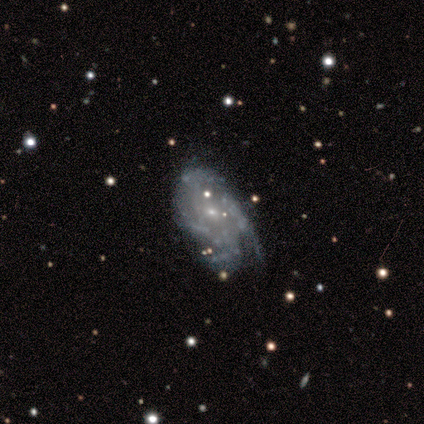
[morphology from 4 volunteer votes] A featured or disk galaxy (75%) with a strong bar (33%, tied with weak and no), 4 (67%) tight (67%) spiral arms (100%) and a small central bulge (100%).

Vote fractions:
- Smooth or featured? featured or disk: 75% / star or artifact: 25% / smooth: 0%
- Edge-on disk? no: 100% / yes: 0%
- Bar? strong: 33% (tied) / weak: 33% (tied) / no: 33% (tied)
- Spiral arms? yes: 100% / no: 0%
- Spiral winding? tight: 67% / medium: 33% / loose: 0%
- Spiral arm count? 4: 67% / can't tell: 33% / 1: 0% / 2: 0% / 3: 0% / more than 4: 0%
- Bulge size? small: 100% / dominant: 0% / large: 0% / moderate: 0% / none: 0%
- Merging? none: 67% / minor disturbance: 33% / major disturbance: 0% / merger: 0%